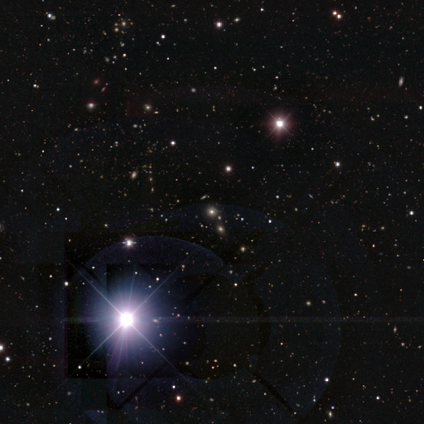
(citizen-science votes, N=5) This appears to be a star or artifact, not a galaxy (100%).